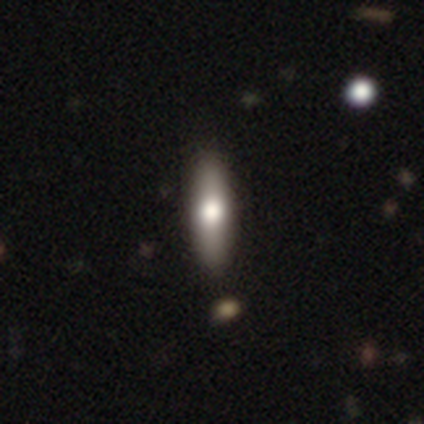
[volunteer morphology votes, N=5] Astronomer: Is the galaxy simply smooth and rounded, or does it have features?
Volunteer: smooth — 80%.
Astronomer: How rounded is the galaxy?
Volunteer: cigar-shaped — 75%.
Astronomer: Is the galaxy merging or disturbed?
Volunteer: none — 80%.